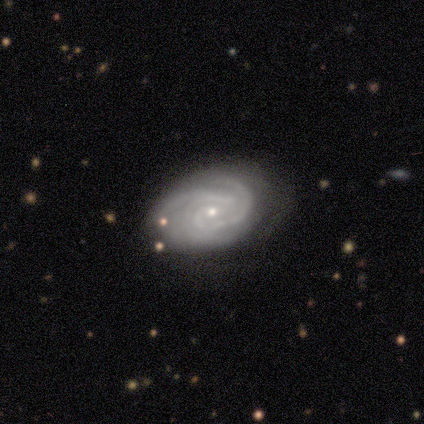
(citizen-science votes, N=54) Overall: featured or disk (80%). Edge-on disk: no (95%). Bar: no (66%; weak 32%). Spiral arms: yes (100%). Spiral arm count: 3 (49%; 2 22%). Spiral winding: tight (68%). Bulge size: small (93%). Merging: none (81%).